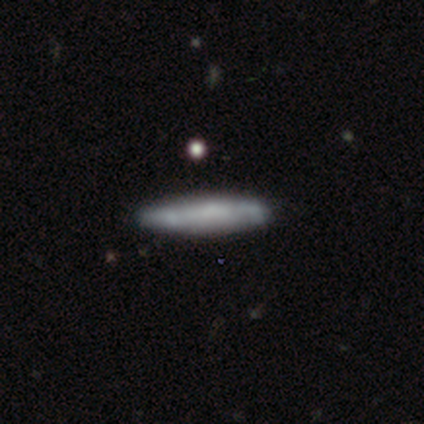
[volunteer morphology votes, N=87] This appears to be a smooth galaxy with no disk features (66%) that is cigar-shaped (98%). Merging: none (81%).